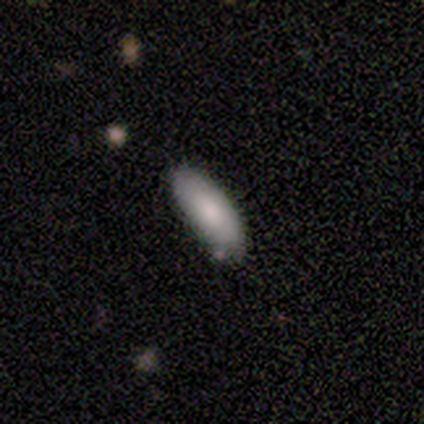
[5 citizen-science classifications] smooth-or-featured: smooth: 100% | featured or disk: 0% | star or artifact: 0%
  how-rounded: in between: 100% | round: 0% | cigar-shaped: 0%
  merging: none: 100% | minor disturbance: 0% | major disturbance: 0% | merger: 0%